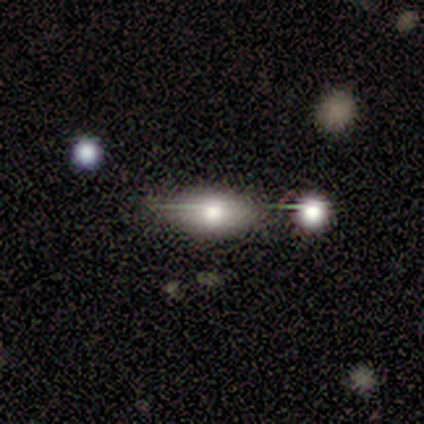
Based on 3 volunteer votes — star or artifact 67%, smooth 33%, featured or disk 0%.